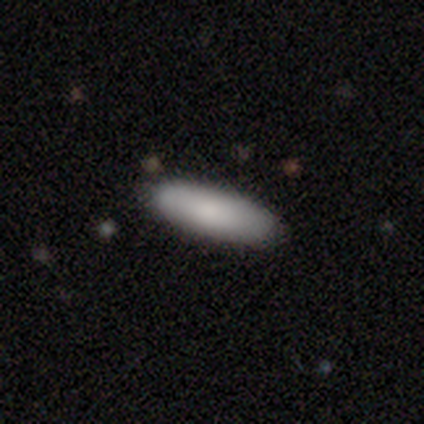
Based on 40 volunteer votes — Smooth or featured: smooth — 92% (featured or disk — 8%)
How rounded: cigar-shaped — 54% (in between — 46%)
Merging: none — 78% (minor disturbance — 18%)